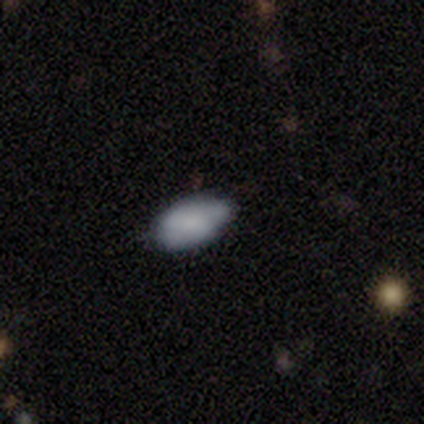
A smooth galaxy with no disk features (60%) that is in between round and cigar-shaped (67%).

Vote fractions:
- Smooth or featured? smooth: 60% / featured or disk: 20% / star or artifact: 20%
- How rounded? in between: 67% / round: 33% / cigar-shaped: 0%
- Merging? none: 75% / minor disturbance: 25% / major disturbance: 0% / merger: 0%